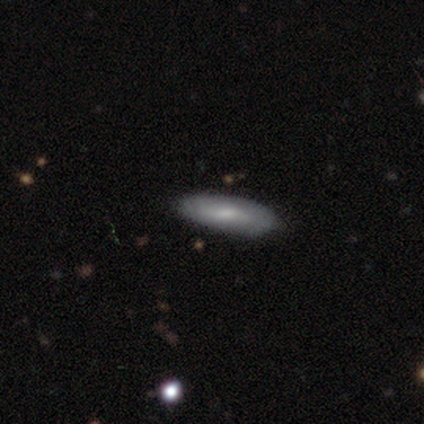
Smooth or featured: smooth — 100%
How rounded: in between — 60% (cigar-shaped — 40%)
Merging: none — 80% (merger — 20%)